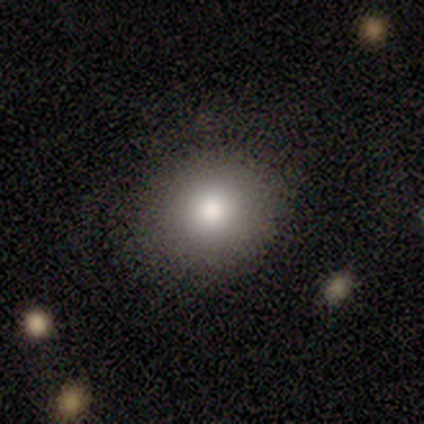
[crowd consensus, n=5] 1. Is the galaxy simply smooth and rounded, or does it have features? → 100% smooth, 0% featured or disk, 0% star or artifact.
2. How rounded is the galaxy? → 60% round, 40% in between, 0% cigar-shaped.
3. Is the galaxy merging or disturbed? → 60% none, 40% major disturbance, 0% minor disturbance, 0% merger.